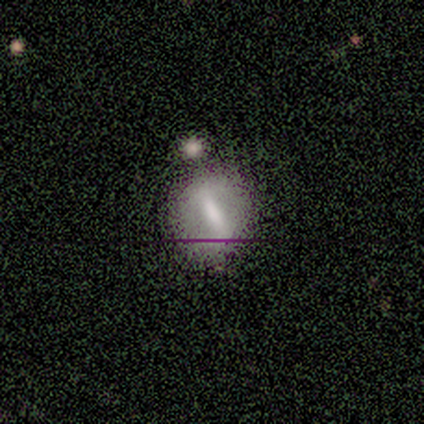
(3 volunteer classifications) This is likely a smooth galaxy (67%). How rounded: possibly round (50%, tied with in between). Merging: marginally none (33%, tied with minor disturbance and merger).